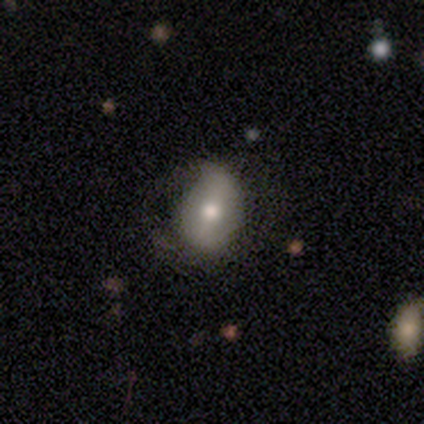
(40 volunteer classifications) A smooth galaxy with no disk features (57%) that is in between round and cigar-shaped (83%). Merging: minor disturbance (47%).